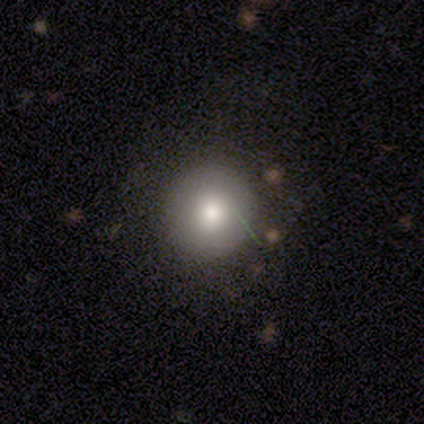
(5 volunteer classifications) Volunteers were most divided on "smooth or featured": smooth: 60%, featured or disk: 20%, star or artifact: 20%. More confident: how rounded — round (100%); merging — none (100%).